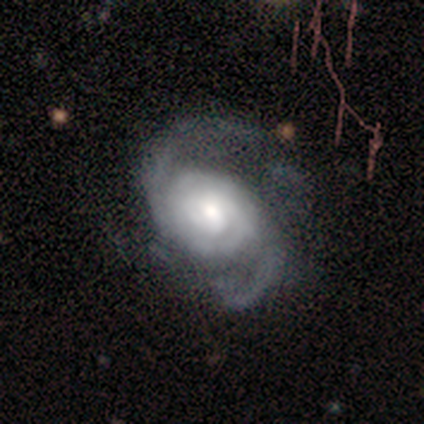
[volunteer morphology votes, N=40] Smooth or featured?
  - featured or disk: 98% *
  - smooth: 2%
  - star or artifact: 0%
Edge-on disk?
  - no: 95% *
  - yes: 5%
Bar?
  - no: 76% *
  - weak: 19%
  - strong: 5%
Spiral arms?
  - yes: 100% *
  - no: 0%
Spiral winding?
  - medium: 51% *
  - tight: 35%
  - loose: 14%
Spiral arm count?
  - 2: 81% *
  - can't tell: 16%
  - 3: 3%
  - 1: 0%
  - 4: 0%
  - more than 4: 0%
Bulge size?
  - moderate: 49% *
  - large: 32%
  - small: 16%
  - dominant: 3%
  - none: 0%
Merging?
  - none: 35% *
  - minor disturbance: 20%
  - major disturbance: 15%
  - merger: 5%